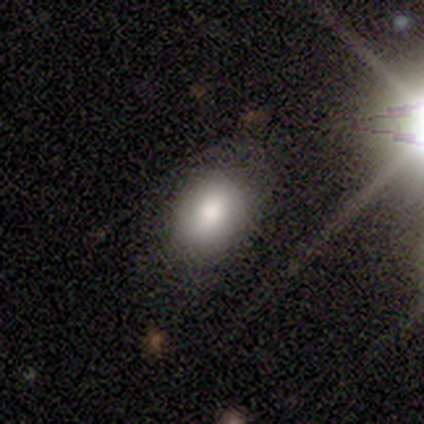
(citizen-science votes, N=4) smooth 100%, featured or disk 0%, star or artifact 0%. Down the decision tree: how rounded — in between (100%); merging — none (75%).